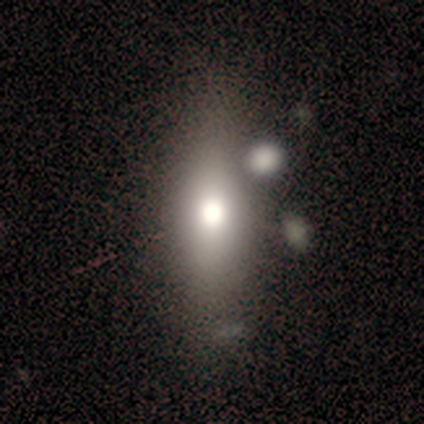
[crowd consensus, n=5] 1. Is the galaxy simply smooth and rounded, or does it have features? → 60% smooth, 20% featured or disk, 20% star or artifact.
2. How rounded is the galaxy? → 100% in between, 0% round, 0% cigar-shaped.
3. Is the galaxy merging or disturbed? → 100% none, 0% minor disturbance, 0% major disturbance, 0% merger.